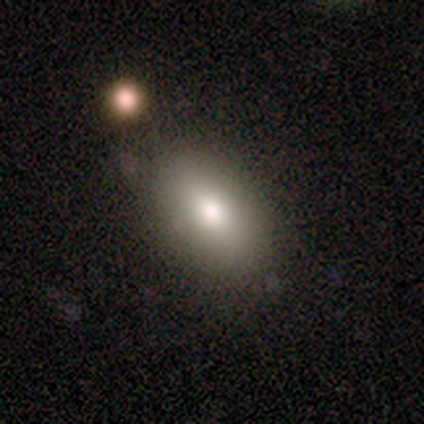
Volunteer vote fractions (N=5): smooth 80%, featured or disk 20%, star or artifact 0%. Down the decision tree: how rounded — round (50%, tied with in between); merging — none (100%).